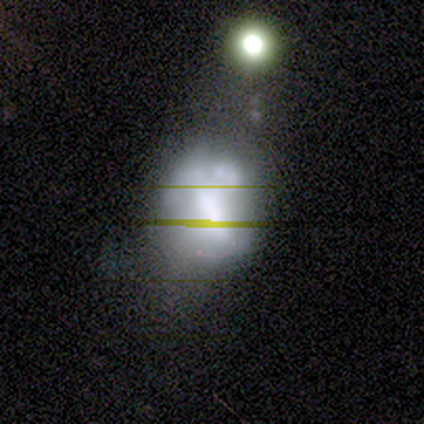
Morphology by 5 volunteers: Smooth or featured? 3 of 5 (60%) said featured or disk. Edge-on disk? 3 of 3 (100%) said no. Bar? 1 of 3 (33%, tied with weak and no) said strong. Spiral arms? 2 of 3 (67%) said no. Bulge size? 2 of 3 (67%) said large. Merging? 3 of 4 (75%) said minor disturbance.